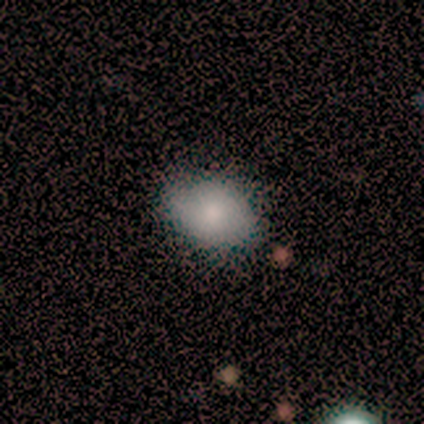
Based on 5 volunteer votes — A smooth galaxy with no disk features (100%) that is in between round and cigar-shaped (60%). Merging: none (40%, tied with minor disturbance).